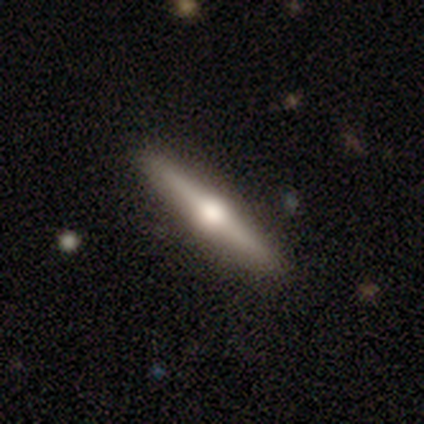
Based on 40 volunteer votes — Smooth or featured?
  - featured or disk: 75% *
  - smooth: 22%
  - star or artifact: 2%
Edge-on disk?
  - yes: 100% *
  - no: 0%
Edge-on bulge?
  - rounded: 93% *
  - boxy: 3%
  - none: 3%
Merging?
  - none: 90% *
  - minor disturbance: 8%
  - merger: 3%
  - major disturbance: 0%